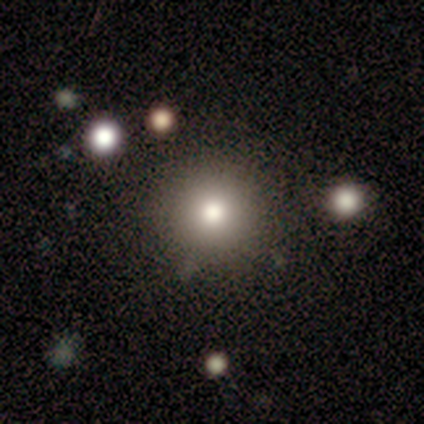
Overall: smooth (83%). How rounded: round (100%). Merging: none (100%).